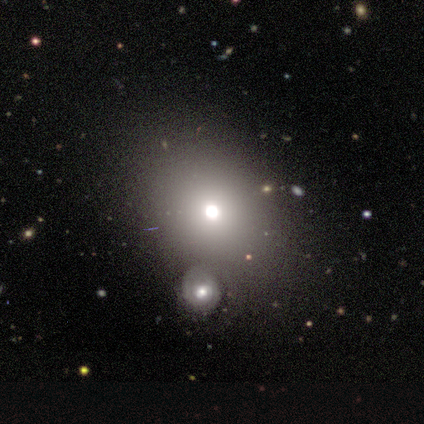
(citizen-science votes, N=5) Overall: smooth (60%; featured or disk 20%). How rounded: in between (100%). Merging: none (50%; major disturbance 25%).